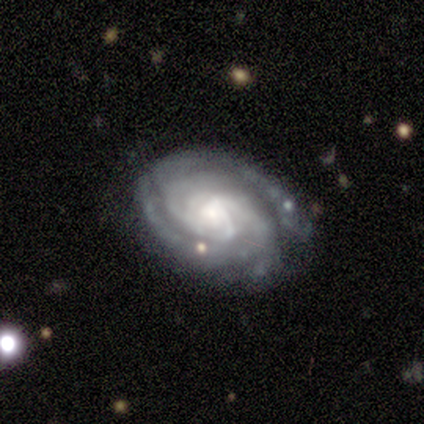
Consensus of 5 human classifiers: A featured or disk galaxy (100%) with no bar (100%), 3 (40%, tied with 4) tight (80%) spiral arms (100%) and a moderate central bulge (40%, tied with small).

Vote fractions:
- Smooth or featured? featured or disk: 100% / smooth: 0% / star or artifact: 0%
- Edge-on disk? no: 100% / yes: 0%
- Bar? no: 100% / strong: 0% / weak: 0%
- Spiral arms? yes: 100% / no: 0%
- Spiral winding? tight: 80% / loose: 20% / medium: 0%
- Spiral arm count? 3: 40% (tied) / 4: 40% (tied) / more than 4: 20% / 1: 0% / 2: 0% / can't tell: 0%
- Bulge size? moderate: 40% (tied) / small: 40% (tied) / large: 20% / dominant: 0% / none: 0%
- Merging? none: 100% / minor disturbance: 0% / major disturbance: 0% / merger: 0%